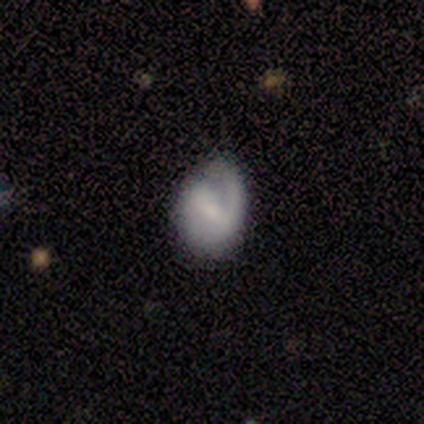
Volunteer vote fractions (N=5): Volunteers were most divided on "merging": none: 60%, minor disturbance: 40%, major disturbance: 0%, merger: 0%. More confident: edge-on disk — no (100%); spiral arms — yes (100%); smooth or featured — featured or disk (80%); spiral arm count — 2 (75%); bar — strong (50%); spiral winding — loose (50%); bulge size — moderate (50%).